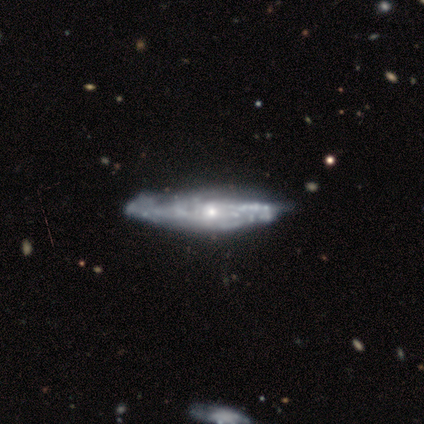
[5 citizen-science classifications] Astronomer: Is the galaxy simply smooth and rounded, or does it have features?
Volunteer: featured or disk — 100%.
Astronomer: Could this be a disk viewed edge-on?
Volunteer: yes — 60% (runner-up: no, 40%).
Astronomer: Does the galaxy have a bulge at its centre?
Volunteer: none — 67%.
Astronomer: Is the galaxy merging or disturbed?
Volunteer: none — 80%.